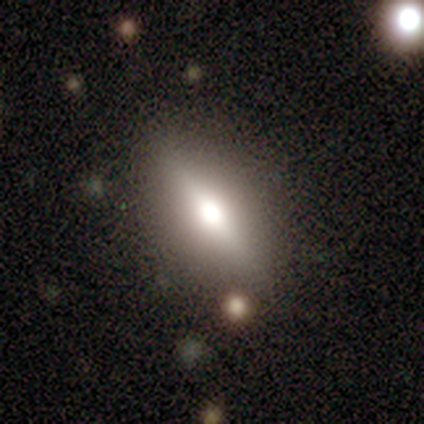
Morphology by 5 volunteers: smooth 60%, featured or disk 40%, star or artifact 0%. Down the decision tree: how rounded — in between (100%); merging — none (80%).